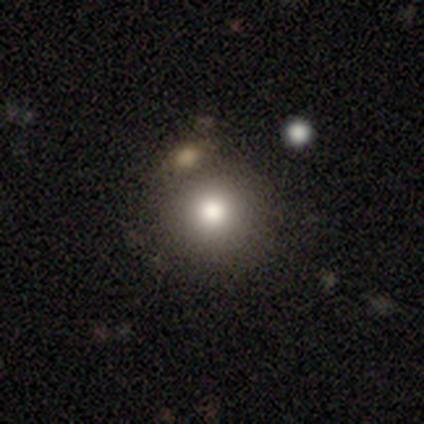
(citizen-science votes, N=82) A smooth galaxy with no disk features (78%) that is round (95%). Merging: none (67%).